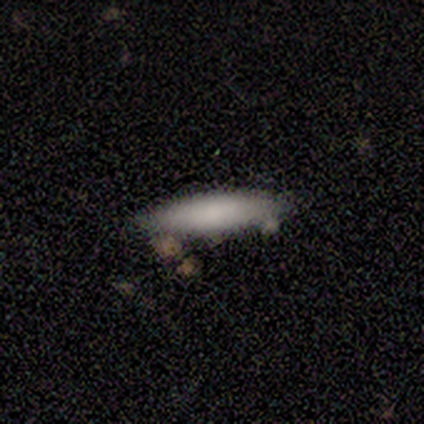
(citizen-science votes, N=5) smooth-or-featured: smooth: 80% | featured or disk: 20% | star or artifact: 0%
  how-rounded: in between: 50% (tied) | cigar-shaped: 50% (tied) | round: 0%
  merging: none: 60% | minor disturbance: 20% | merger: 20% | major disturbance: 0%